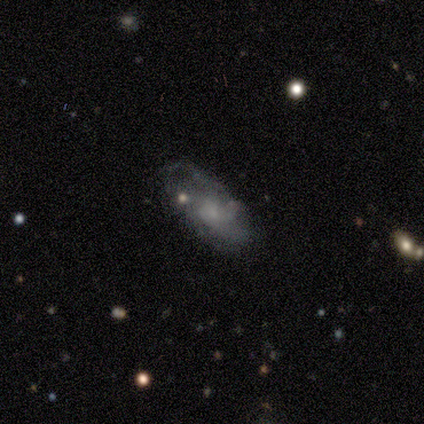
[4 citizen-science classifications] A smooth galaxy with no disk features (75%) that is in between round and cigar-shaped (100%).

Vote fractions:
- Smooth or featured? smooth: 75% / featured or disk: 25% / star or artifact: 0%
- How rounded? in between: 100% / round: 0% / cigar-shaped: 0%
- Merging? none: 75% / minor disturbance: 25% / major disturbance: 0% / merger: 0%